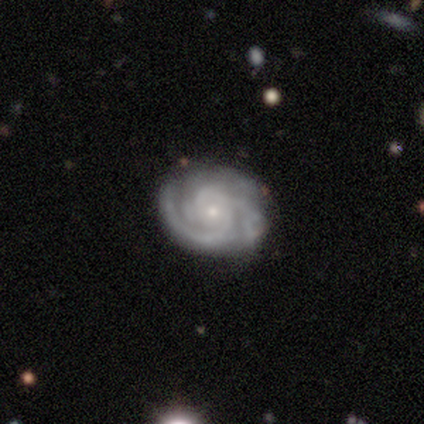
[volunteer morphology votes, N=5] Q: Smooth or featured?
A: featured or disk (80%); runner-up: star or artifact (20%)
Q: Edge-on disk?
A: no (100%)
Q: Bar?
A: no (75%); runner-up: weak (25%)
Q: Spiral arms?
A: yes (100%)
Q: Spiral winding?
A: tight (100%)
Q: Spiral arm count?
A: 3 (75%); runner-up: 2 (25%)
Q: Bulge size?
A: small (100%)
Q: Merging?
A: none (50%); tied with: minor disturbance (50%)